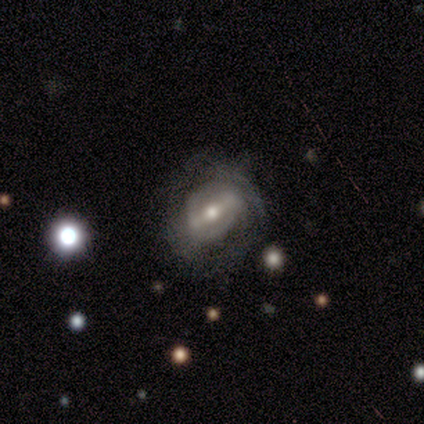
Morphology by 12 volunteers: featured or disk 75%, smooth 17%, star or artifact 8%. Down the decision tree: edge-on disk — no (100%); bar — strong (56%); spiral arms — yes (67%); spiral arm count — can't tell (67%); spiral winding — tight (50%, tied with medium); bulge size — moderate (67%); merging — none (82%).